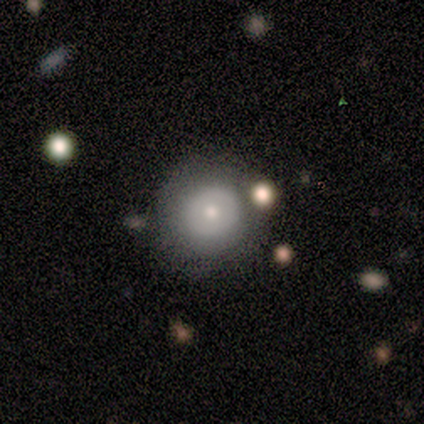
Smooth or featured? 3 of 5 (60%) said smooth. How rounded? 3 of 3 (100%) said round. Merging? 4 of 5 (80%) said none.